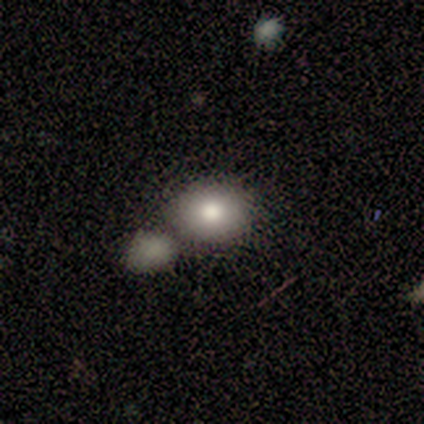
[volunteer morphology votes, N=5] A smooth galaxy with no disk features (100%) that is round (80%). Merging: merger (60%).